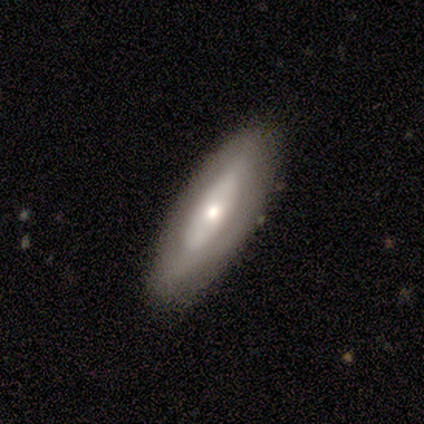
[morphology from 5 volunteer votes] Overall: featured or disk (60%; smooth 40%). Edge-on disk: no (100%). Bar: no (100%). Spiral arms: no (67%; yes 33%). Bulge size: moderate (67%; small 33%). Merging: none (100%).